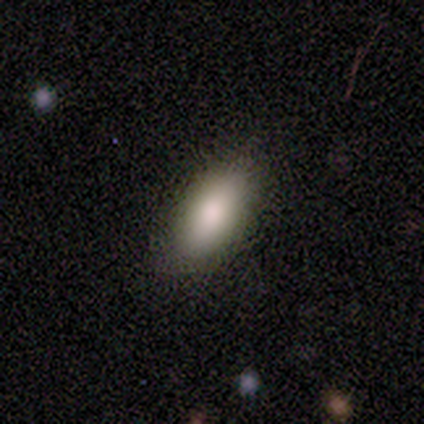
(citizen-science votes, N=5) A smooth galaxy with no disk features (100%) that is in between round and cigar-shaped (100%). Merging: none (100%).